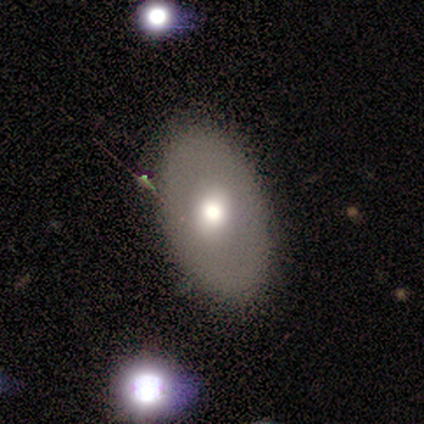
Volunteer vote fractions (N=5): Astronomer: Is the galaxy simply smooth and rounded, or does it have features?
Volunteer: smooth — 80%.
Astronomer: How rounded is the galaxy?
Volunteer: round — 50%, tied with in between at 50%.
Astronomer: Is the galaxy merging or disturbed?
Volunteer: none — 60% (runner-up: major disturbance, 40%).